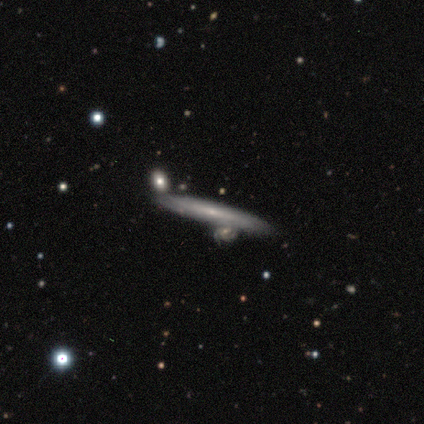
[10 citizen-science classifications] Smooth or featured?
  - featured or disk: 50% *
  - smooth: 40%
  - star or artifact: 10%
Edge-on disk?
  - yes: 80% *
  - no: 20%
Edge-on bulge?
  - rounded: 75% *
  - none: 25%
  - boxy: 0%
Merging?
  - none: 78% *
  - minor disturbance: 11%
  - merger: 11%
  - major disturbance: 0%